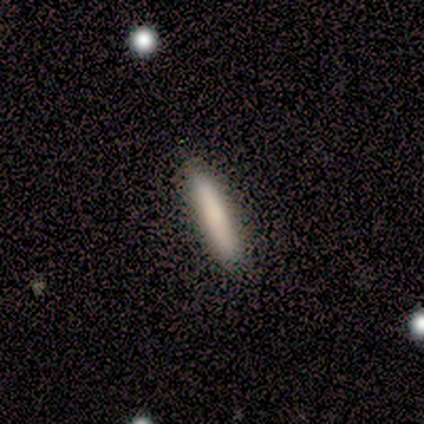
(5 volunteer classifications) Volunteers were most divided on "smooth or featured": smooth: 80%, featured or disk: 20%, star or artifact: 0%. More confident: how rounded — cigar-shaped (100%); merging — none (80%).